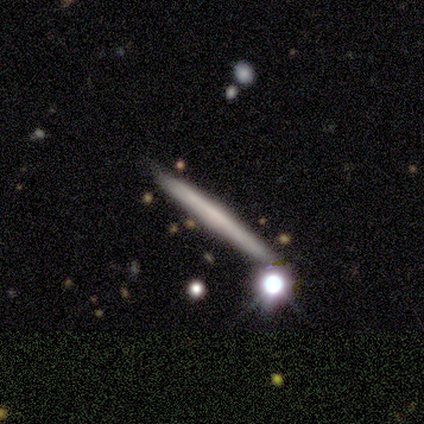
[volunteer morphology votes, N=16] smooth 69%, featured or disk 31%, star or artifact 0%. Down the decision tree: how rounded — cigar-shaped (91%); merging — none (81%).